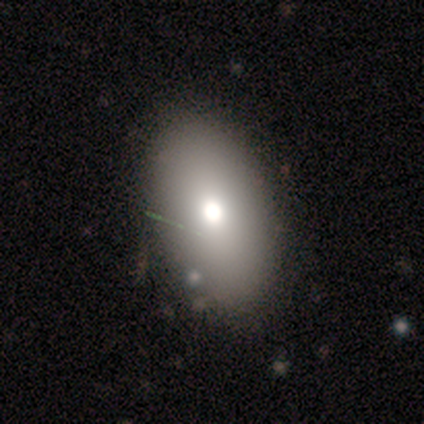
Smooth or featured? 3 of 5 (60%) said featured or disk. Edge-on disk? 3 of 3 (100%) said no. Bar? 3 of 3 (100%) said no. Spiral arms? 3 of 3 (100%) said no. Bulge size? 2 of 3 (67%) said large. Merging? 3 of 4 (75%) said none.